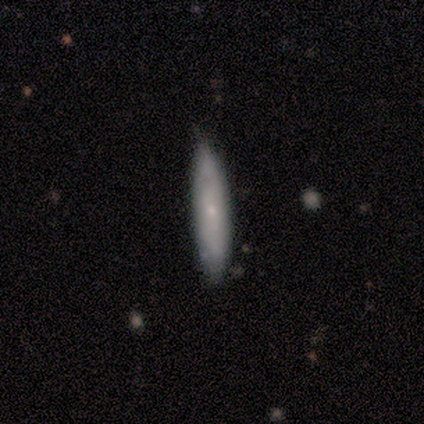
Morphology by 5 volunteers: Smooth or featured: smooth — 60% (featured or disk — 20%)
How rounded: cigar-shaped — 100%
Merging: none — 75% (minor disturbance — 25%)